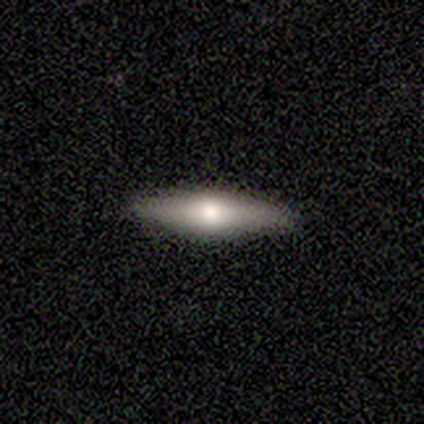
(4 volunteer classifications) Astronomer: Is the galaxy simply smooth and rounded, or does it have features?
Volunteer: smooth — 50%, tied with featured or disk at 50%.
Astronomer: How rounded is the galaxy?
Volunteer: cigar-shaped — 100%.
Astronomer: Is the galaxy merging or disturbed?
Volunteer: none — 100%.